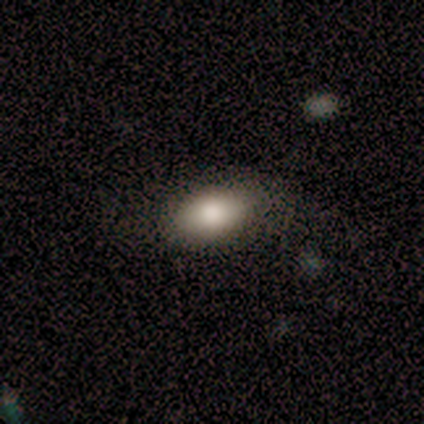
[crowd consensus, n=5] smooth-or-featured: smooth: 40% (tied) | featured or disk: 40% (tied) | star or artifact: 20%
  how-rounded: in between: 100% | round: 0% | cigar-shaped: 0%
  merging: none: 50% | minor disturbance: 25% | merger: 25% | major disturbance: 0%